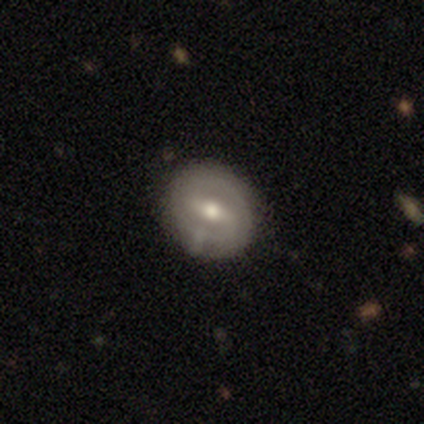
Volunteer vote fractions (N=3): Smooth or featured? featured or disk (100%)
Edge-on disk? no (100%)
Bar? weak (67%)
Spiral arms? no (67%)
Bulge size? moderate (100%)
Merging? none (100%)